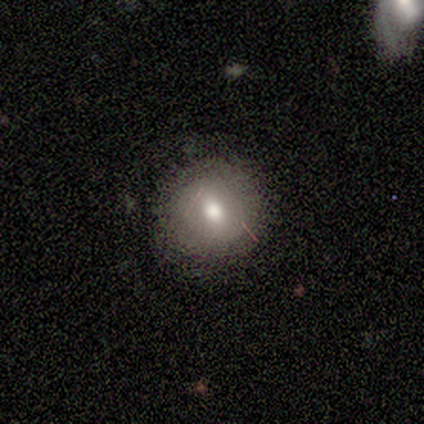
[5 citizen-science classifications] A smooth galaxy with no disk features (60%) that is round (100%).

Vote fractions:
- Smooth or featured? smooth: 60% / featured or disk: 40% / star or artifact: 0%
- How rounded? round: 100% / in between: 0% / cigar-shaped: 0%
- Merging? none: 100% / minor disturbance: 0% / major disturbance: 0% / merger: 0%